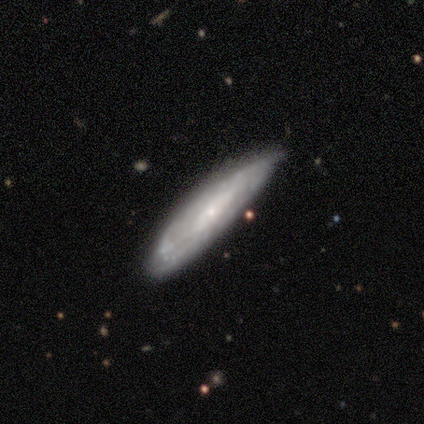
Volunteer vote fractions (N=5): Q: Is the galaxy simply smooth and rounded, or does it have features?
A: featured or disk — 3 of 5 (60%).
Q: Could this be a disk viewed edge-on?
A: yes — 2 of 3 (67%).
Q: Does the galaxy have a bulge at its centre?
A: none — 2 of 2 (100%).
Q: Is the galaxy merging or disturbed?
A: none — 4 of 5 (80%).